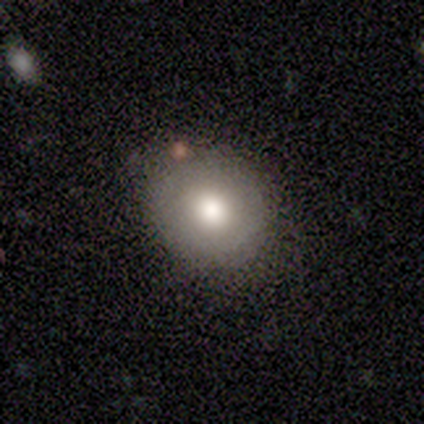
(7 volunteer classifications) This is clearly a smooth galaxy (100%). How rounded: clearly round (100%). Merging: likely none (71%).